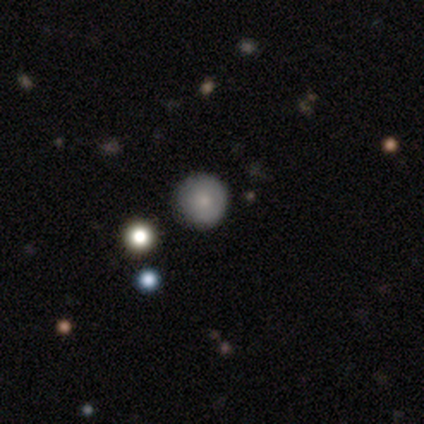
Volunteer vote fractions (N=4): Q: Smooth or featured?
A: smooth (50%); tied with: star or artifact (50%)
Q: How rounded?
A: round (100%)
Q: Merging?
A: none (100%)